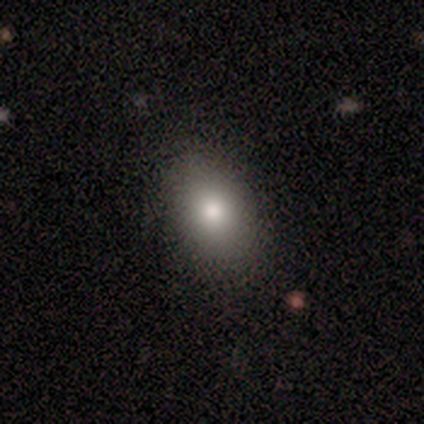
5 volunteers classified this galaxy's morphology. smooth-or-featured: smooth: 80% | featured or disk: 20% | star or artifact: 0%
  how-rounded: in between: 100% | round: 0% | cigar-shaped: 0%
  merging: none: 100% | minor disturbance: 0% | major disturbance: 0% | merger: 0%